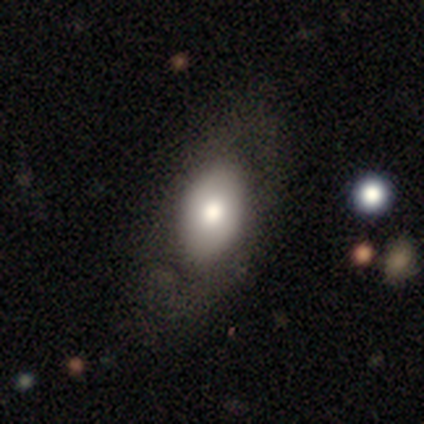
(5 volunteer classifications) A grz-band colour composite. It shows a smooth galaxy with no disk features (60%) that is in between round and cigar-shaped (100%). Merging: none (50%, tied with minor disturbance).